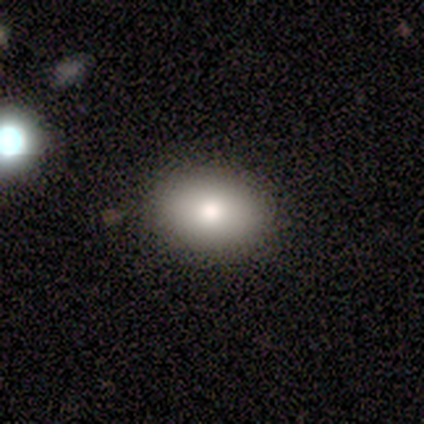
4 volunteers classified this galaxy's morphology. Volunteers were most divided on "how rounded": in between: 75%, round: 25%, cigar-shaped: 0%. More confident: smooth or featured — smooth (100%); merging — none (100%).